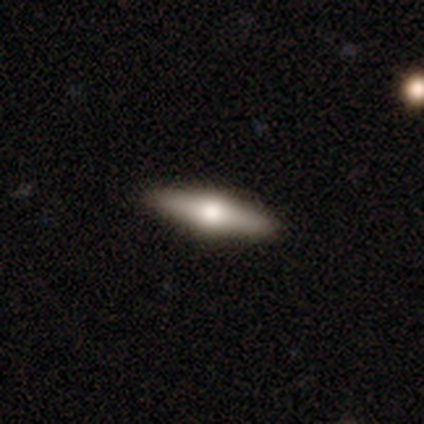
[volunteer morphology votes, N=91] A featured or disk galaxy (47%) viewed edge-on (93%) with a rounded central bulge (95%). Merging: none (92%).